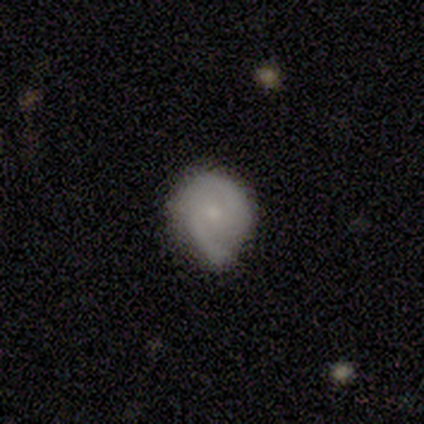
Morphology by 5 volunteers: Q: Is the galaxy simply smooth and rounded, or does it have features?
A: featured or disk — 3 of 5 (60%).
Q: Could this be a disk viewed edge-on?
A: no — 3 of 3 (100%).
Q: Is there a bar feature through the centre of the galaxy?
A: weak — 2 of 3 (67%).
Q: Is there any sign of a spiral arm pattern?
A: yes — 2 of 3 (67%).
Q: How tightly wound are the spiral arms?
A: medium — 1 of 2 (50%, tied with loose).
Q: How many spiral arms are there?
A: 2 — 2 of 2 (100%).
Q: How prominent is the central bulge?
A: small — 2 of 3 (67%).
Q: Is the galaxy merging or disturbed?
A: none — 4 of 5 (80%).